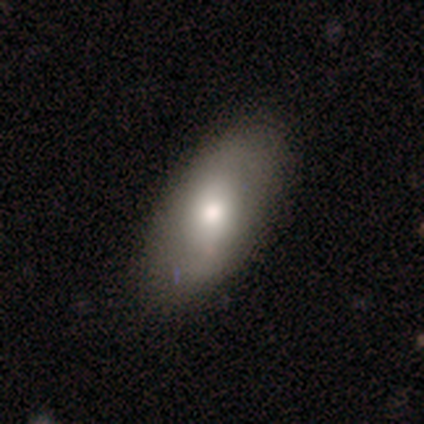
smooth-or-featured: smooth: 70% | featured or disk: 23% | star or artifact: 7%
  how-rounded: in between: 83% | cigar-shaped: 15% | round: 2%
  merging: none: 75% | minor disturbance: 21% | merger: 2% | major disturbance: 1%